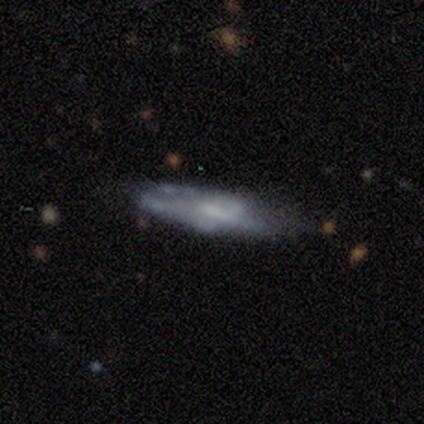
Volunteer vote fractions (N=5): Volunteers were most divided on "merging": none: 60%, minor disturbance: 40%, major disturbance: 0%, merger: 0%. More confident: how rounded — cigar-shaped (100%); smooth or featured — smooth (80%).